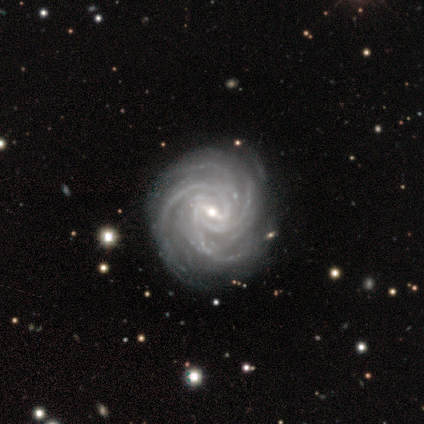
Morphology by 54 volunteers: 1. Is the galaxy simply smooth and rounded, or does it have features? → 93% featured or disk, 4% smooth, 4% star or artifact.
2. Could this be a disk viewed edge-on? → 100% no, 0% yes.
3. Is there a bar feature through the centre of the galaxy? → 52% weak, 44% strong, 4% no.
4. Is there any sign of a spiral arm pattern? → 100% yes, 0% no.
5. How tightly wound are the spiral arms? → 70% tight, 26% medium, 4% loose.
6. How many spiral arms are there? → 42% 4, 30% more than 4, 14% 3, 8% can't tell, 6% 2, 0% 1.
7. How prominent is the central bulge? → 62% small, 34% moderate, 4% large, 0% dominant, 0% none.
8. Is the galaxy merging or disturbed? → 87% none, 12% minor disturbance, 2% major disturbance, 0% merger.